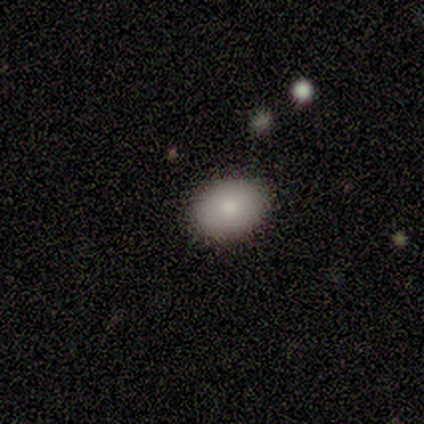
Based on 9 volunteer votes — This is clearly a smooth galaxy (100%). How rounded: likely in between (67%). Merging: clearly none (100%).